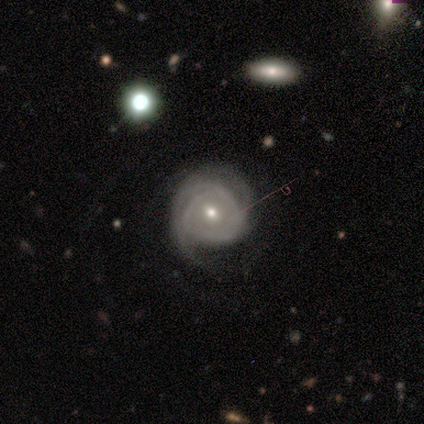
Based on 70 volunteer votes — This appears to be a featured or disk galaxy (84%) with no bar (72%), tight (71%) spiral arms (90%) and a moderate central bulge (52%). Merging: none (60%).